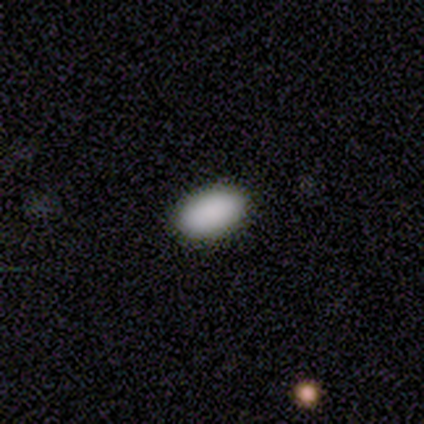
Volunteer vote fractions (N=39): Smooth or featured? 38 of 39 (97%) said smooth. How rounded? 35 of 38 (92%) said in between. Merging? 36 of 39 (92%) said none.